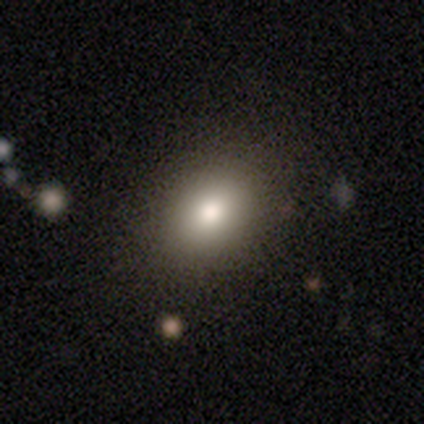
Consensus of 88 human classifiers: A smooth galaxy with no disk features (78%) that is in between round and cigar-shaped (65%).

Vote fractions:
- Smooth or featured? smooth: 78% / star or artifact: 12% / featured or disk: 9%
- How rounded? in between: 65% / round: 35% / cigar-shaped: 0%
- Merging? none: 88% / minor disturbance: 9% / major disturbance: 1% / merger: 1%